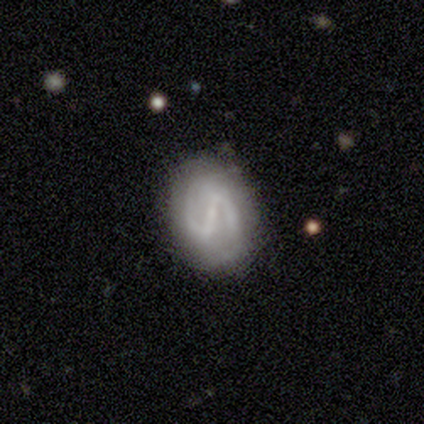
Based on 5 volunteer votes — A featured or disk galaxy (60%) with a weak bar (67%), 2 (100%) medium (50%, tied with loose) spiral arms (67%) and a small central bulge (100%). Merging: none (100%).